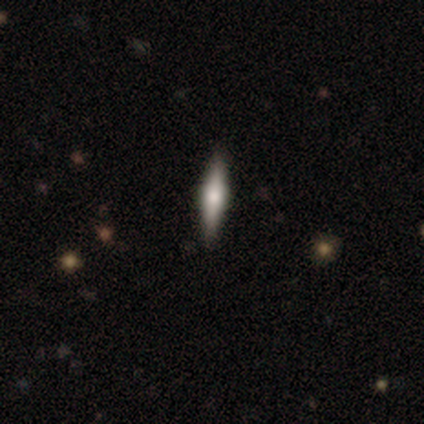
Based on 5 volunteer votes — Morphology: type=featured or disk (60%); edge-on=yes (100%); edge-on bulge=rounded (67%); merging=none (80%).